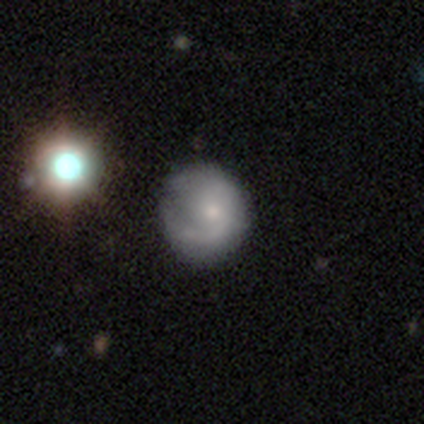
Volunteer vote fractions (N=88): smooth-or-featured: featured or disk: 50% | smooth: 43% | star or artifact: 7%
  disk-edge-on: no: 98% | yes: 2%
    bar: no: 74% | weak: 21% | strong: 5%
    has-spiral-arms: yes: 79% | no: 21%
      spiral-winding: tight: 44% | medium: 32% | loose: 24%
      spiral-arm-count: 1: 62% | 2: 26% | can't tell: 9% | 3: 3% | 4: 0% | more than 4: 0%
    bulge-size: small: 58% | moderate: 28% | none: 12% | large: 2% | dominant: 0%
  merging: none: 52% | minor disturbance: 29% | major disturbance: 16% | merger: 2%